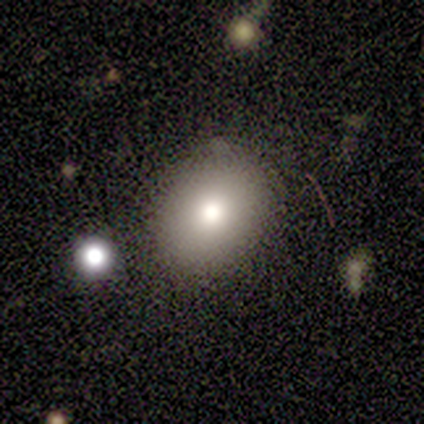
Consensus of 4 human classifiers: Morphology: type=smooth (50%, tied with star or artifact); roundness=round (50%, tied with in between); merging=none (50%, tied with minor disturbance).